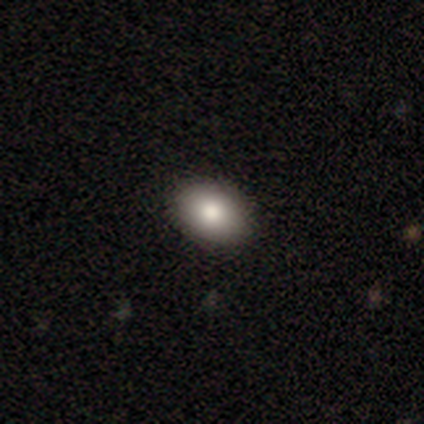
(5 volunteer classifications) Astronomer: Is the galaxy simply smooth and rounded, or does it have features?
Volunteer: smooth — 80%.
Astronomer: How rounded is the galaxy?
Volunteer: in between — 100%.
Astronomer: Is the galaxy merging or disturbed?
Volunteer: none — 100%.